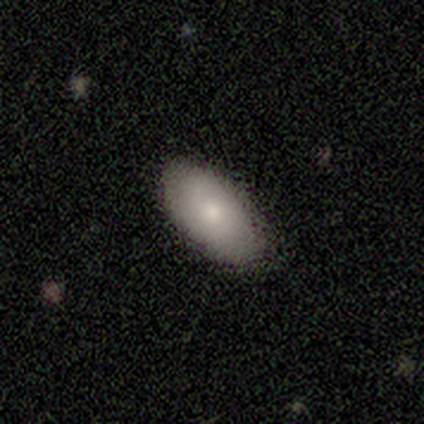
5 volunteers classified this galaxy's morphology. This is clearly a smooth galaxy (100%). How rounded: clearly in between (100%). Merging: likely none (60%).